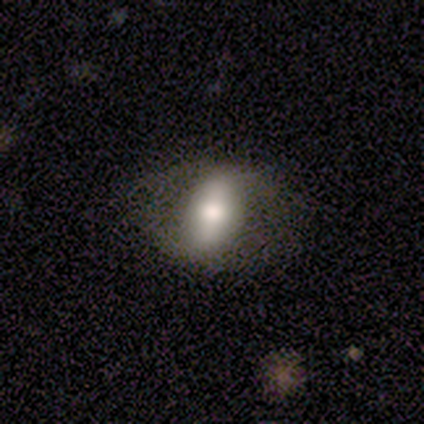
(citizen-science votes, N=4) Smooth or featured?
  - featured or disk: 50% *
  - smooth: 25%
  - star or artifact: 25%
Edge-on disk?
  - yes: 50% * (tied)
  - no: 50% * (tied)
Edge-on bulge?
  - none: 100% *
  - boxy: 0%
  - rounded: 0%
Merging?
  - none: 100% *
  - minor disturbance: 0%
  - major disturbance: 0%
  - merger: 0%